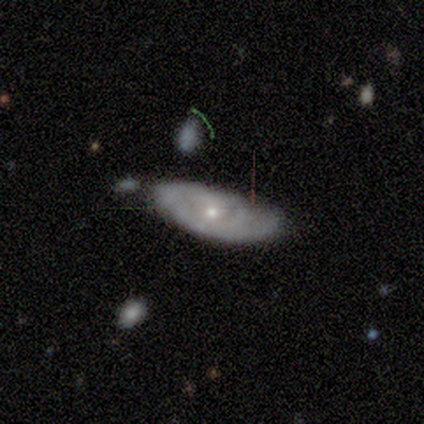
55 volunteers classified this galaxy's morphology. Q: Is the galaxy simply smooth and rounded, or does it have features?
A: featured or disk — 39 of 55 (71%).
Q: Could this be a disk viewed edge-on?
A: no — 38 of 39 (97%).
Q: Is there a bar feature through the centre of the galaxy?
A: no — 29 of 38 (76%).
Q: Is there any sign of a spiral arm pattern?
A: yes — 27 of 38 (71%).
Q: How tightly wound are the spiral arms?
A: tight — 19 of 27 (70%).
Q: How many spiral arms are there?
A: can't tell — 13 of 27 (48%).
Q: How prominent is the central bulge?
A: small — 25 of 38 (66%).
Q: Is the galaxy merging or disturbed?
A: none — 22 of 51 (43%).